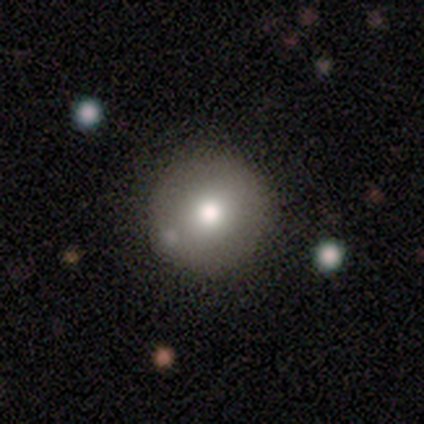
Volunteers were most divided on "smooth or featured": smooth: 83%, featured or disk: 17%, star or artifact: 0%. More confident: how rounded — round (100%); merging — none (83%).